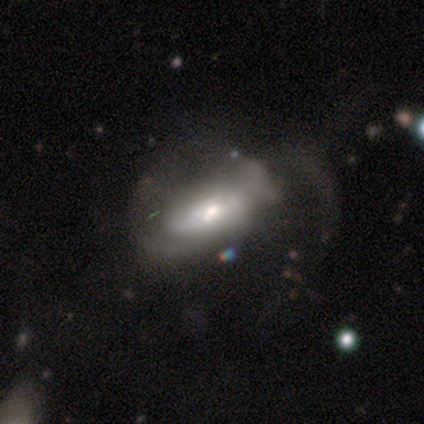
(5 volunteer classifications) This appears to be a featured or disk galaxy (60%) with a strong bar (67%), no spiral arms (67%) and a moderate central bulge (67%). Merging: major disturbance (60%).